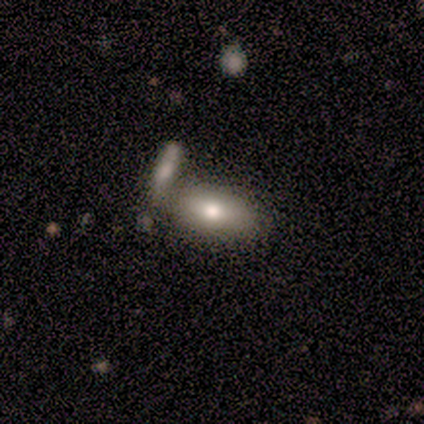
Morphology: type=featured or disk (60%); edge-on=no (100%); bar=no (67%); spiral arms=no (100%); bulge=moderate (67%); merging=merger (60%).